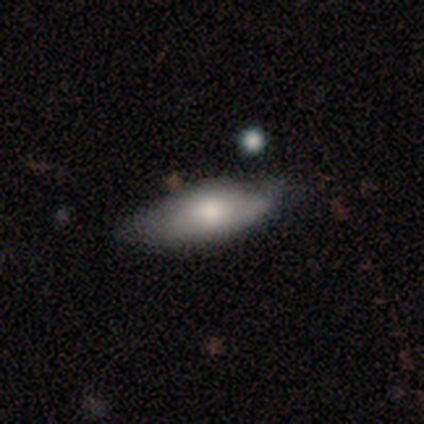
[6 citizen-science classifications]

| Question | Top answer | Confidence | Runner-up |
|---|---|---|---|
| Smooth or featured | smooth | 50% | tied: featured or disk (50%) |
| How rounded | in between | 100% | — |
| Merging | none | 67% | minor disturbance (33%) |